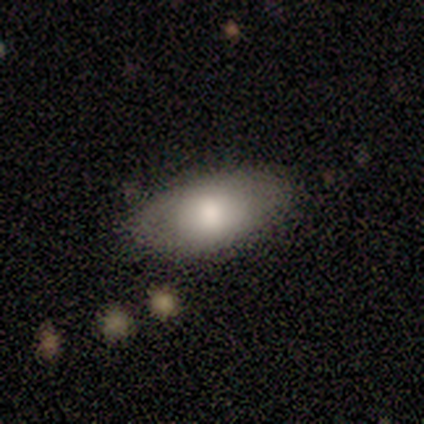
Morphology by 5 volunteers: Smooth or featured: featured or disk — 60% (smooth — 40%)
Edge-on disk: no — 67% (yes — 33%)
Bar: no — 100%
Spiral arms: yes — 50% (tied with no — 50%)
Spiral winding: medium — 100%
Spiral arm count: can't tell — 100%
Bulge size: moderate — 50% (tied with small — 50%)
Merging: none — 80% (minor disturbance — 20%)